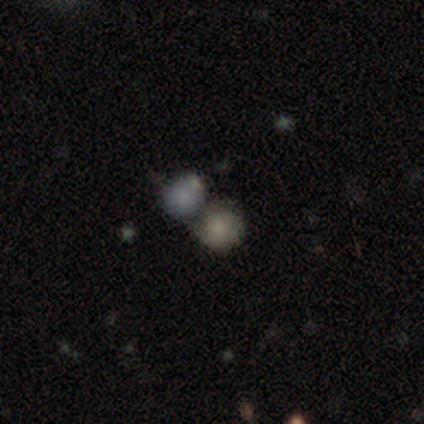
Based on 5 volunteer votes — Morphology: type=smooth (100%); roundness=round (100%); merging=none (40%, tied with merger).